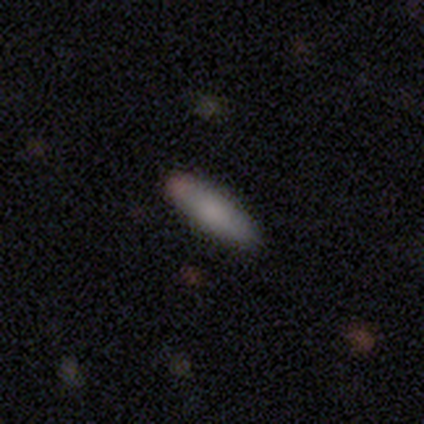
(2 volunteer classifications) This is clearly a smooth galaxy (100%). How rounded: clearly cigar-shaped (100%). Merging: clearly none (100%).